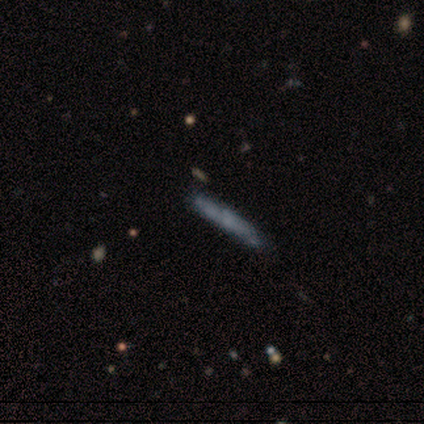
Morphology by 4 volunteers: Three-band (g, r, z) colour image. It shows a smooth galaxy with no disk features (50%, tied with featured or disk) that is cigar-shaped (100%). Merging: none (75%).